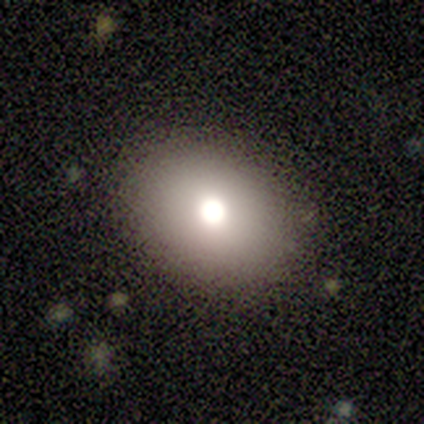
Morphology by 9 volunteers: smooth_or_featured: smooth (p=0.44) [alt: featured or disk p=0.33]
how_rounded: in between (p=0.75) [alt: round p=0.25]
merging: none (p=1.00)